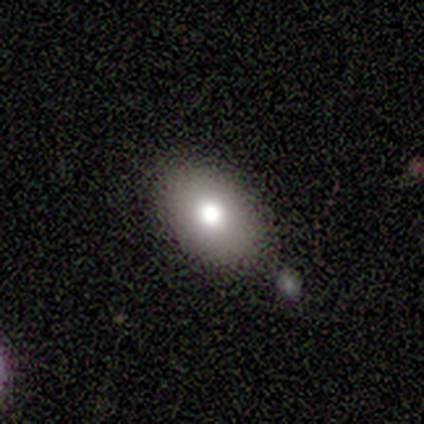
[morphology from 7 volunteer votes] Consensus on every question: smooth or featured — smooth (100%); how rounded — in between (100%); merging — none (100%).